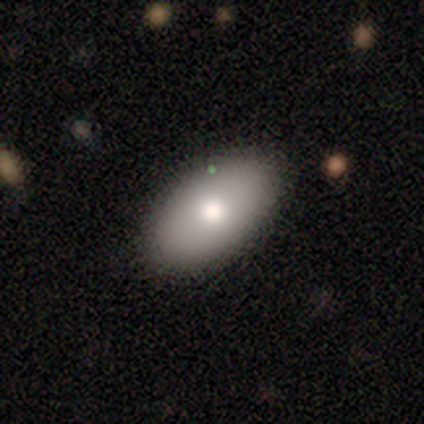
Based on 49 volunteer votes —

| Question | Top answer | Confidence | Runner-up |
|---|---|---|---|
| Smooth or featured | smooth | 73% | featured or disk (20%) |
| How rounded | in between | 97% | round (3%) |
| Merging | none | 78% | minor disturbance (15%) |